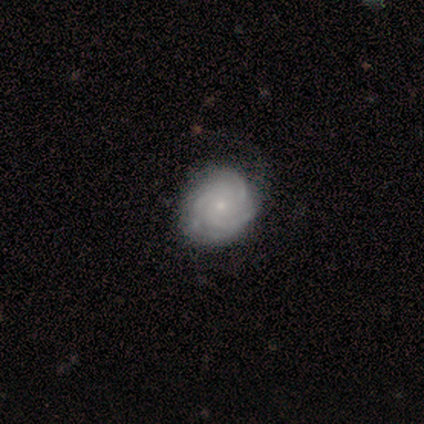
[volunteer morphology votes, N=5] A featured or disk galaxy (80%) with no bar (75%), 2 (33%, tied with 3 and 4) tight (100%) spiral arms (75%) and a small central bulge (100%). Merging: none (100%).